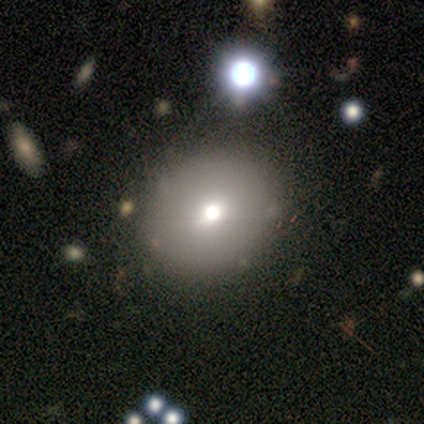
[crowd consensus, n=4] smooth_or_featured: smooth (p=0.75) [alt: featured or disk p=0.25]
how_rounded: round (p=1.00)
merging: none (p=0.75) [alt: major disturbance p=0.25]